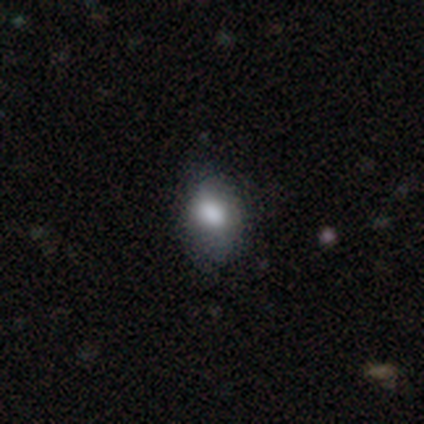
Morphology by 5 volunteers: Overall: smooth (60%; star or artifact 40%). How rounded: in between (100%). Merging: none (100%).